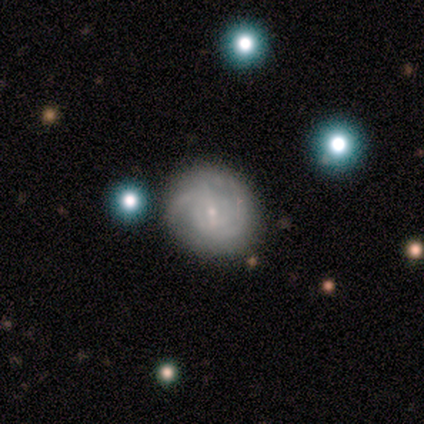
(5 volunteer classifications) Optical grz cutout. It shows a featured or disk galaxy (80%) with a weak bar (75%), 2 (75%) medium (50%) spiral arms (100%) and a small central bulge (75%). Merging: none (60%).